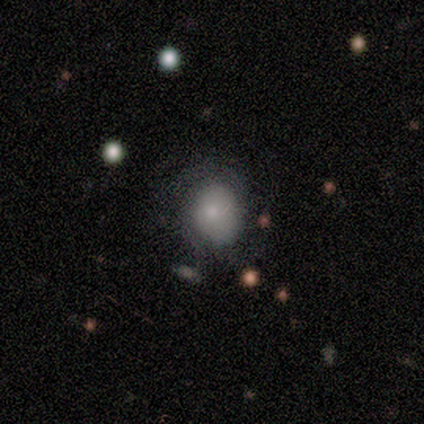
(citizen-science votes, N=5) This appears to be a smooth galaxy with no disk features (60%) that is in between round and cigar-shaped (67%). Merging: minor disturbance (60%).